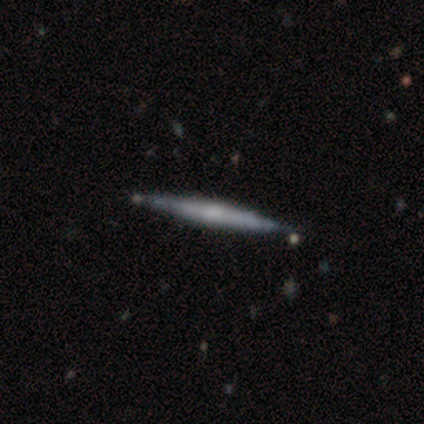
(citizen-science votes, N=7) Morphology: type=featured or disk (71%); edge-on=yes (100%); edge-on bulge=rounded (60%); merging=none (100%).